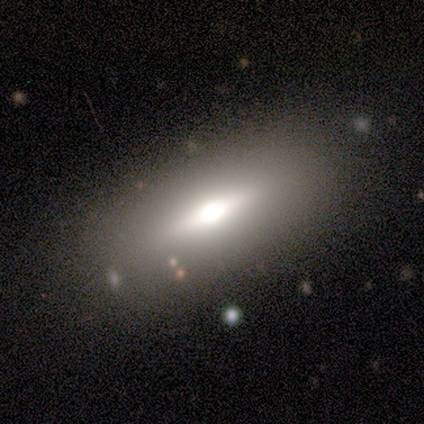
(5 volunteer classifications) A featured or disk galaxy (80%) viewed edge-on (50%, tied with no) with a rounded central bulge (100%).

Vote fractions:
- Smooth or featured? featured or disk: 80% / star or artifact: 20% / smooth: 0%
- Edge-on disk? yes: 50% (tied) / no: 50% (tied)
- Edge-on bulge? rounded: 100% / boxy: 0% / none: 0%
- Merging? none: 100% / minor disturbance: 0% / major disturbance: 0% / merger: 0%